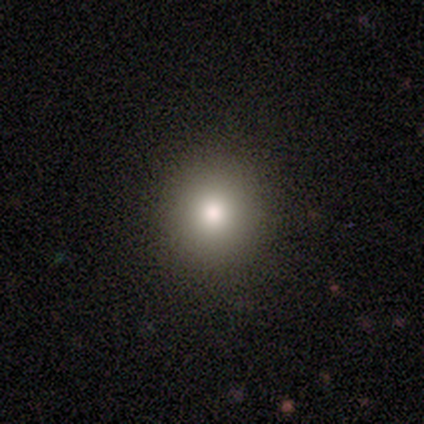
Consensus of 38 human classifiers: Overall: smooth (87%). How rounded: round (91%). Merging: none (100%).